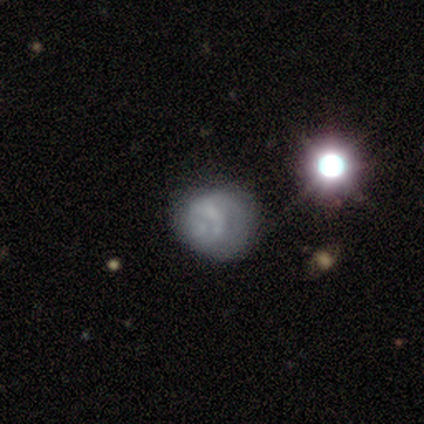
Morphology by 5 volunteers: Volunteers were most divided on "smooth or featured": smooth: 60%, star or artifact: 40%, featured or disk: 0%. More confident: how rounded — round (100%); merging — none (67%).